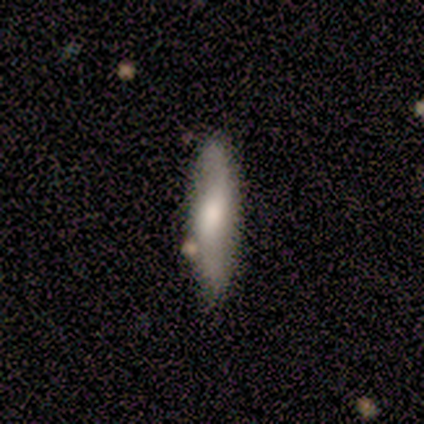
This is possibly a smooth galaxy (59%). How rounded: likely cigar-shaped (78%). Merging: clearly none (80%).